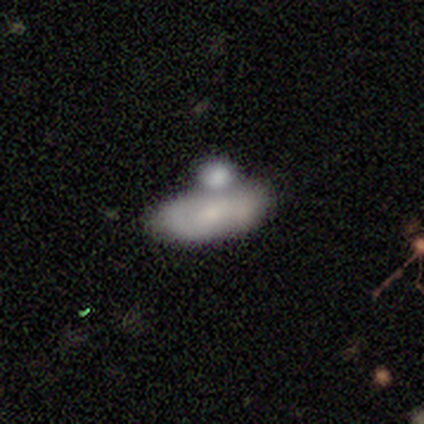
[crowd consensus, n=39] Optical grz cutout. It shows a smooth galaxy with no disk features (62%) that is in between round and cigar-shaped (92%). Merging: merger (75%).